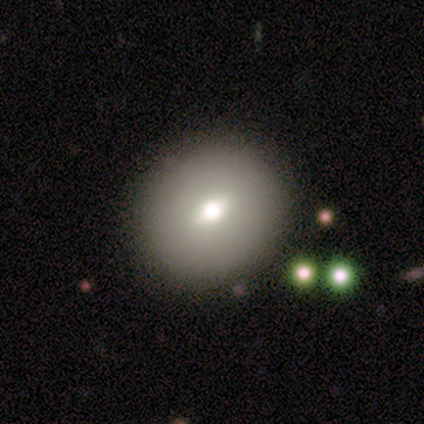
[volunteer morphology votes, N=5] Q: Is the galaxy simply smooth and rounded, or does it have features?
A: smooth — 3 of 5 (60%).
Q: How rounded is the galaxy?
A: round — 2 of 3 (67%).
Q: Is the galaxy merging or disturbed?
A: none — 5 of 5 (100%).